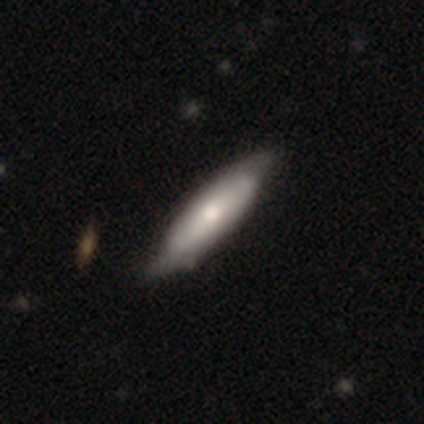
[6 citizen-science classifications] smooth 67%, featured or disk 33%, star or artifact 0%. Down the decision tree: how rounded — cigar-shaped (100%); merging — none (83%).